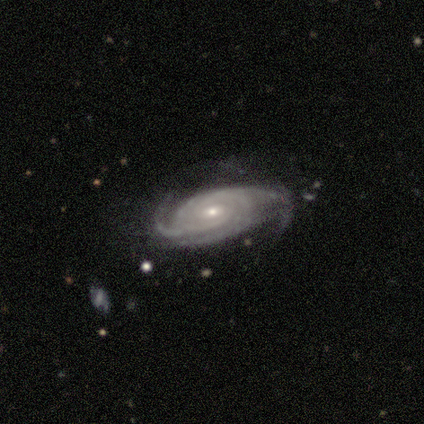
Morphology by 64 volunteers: Volunteers were most divided on "spiral winding": tight: 46%, medium: 40%, loose: 14%. Remaining: spiral arms — yes (96%); smooth or featured — featured or disk (95%); edge-on disk — no (85%); bulge size — small (69%); bar — no (58%); spiral arm count — 3 (42%); merging — none (35%).